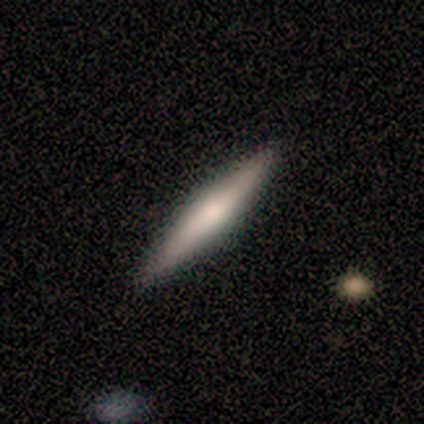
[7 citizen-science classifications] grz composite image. It shows a featured or disk galaxy (43%) viewed edge-on (100%) with no central bulge (67%). Merging: none (100%).